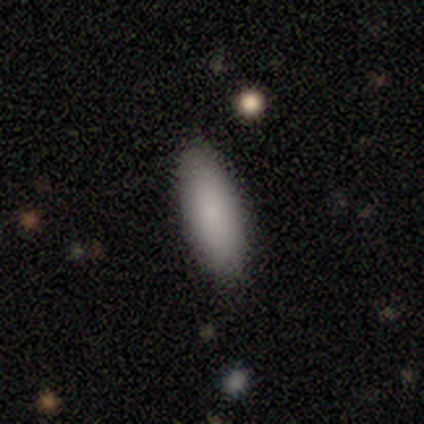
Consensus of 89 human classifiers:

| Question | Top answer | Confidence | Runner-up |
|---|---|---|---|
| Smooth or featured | smooth | 88% | star or artifact (7%) |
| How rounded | in between | 63% | cigar-shaped (36%) |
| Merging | none | 86% | minor disturbance (13%) |